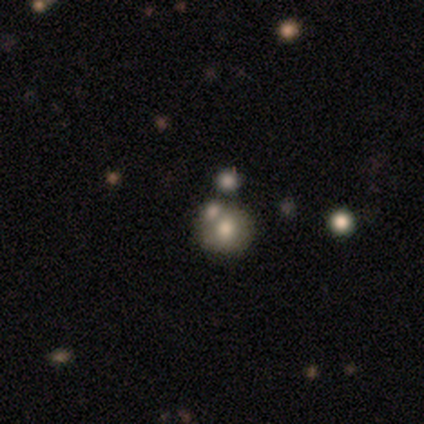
Smooth or featured?
  - smooth: 100% *
  - featured or disk: 0%
  - star or artifact: 0%
How rounded?
  - round: 100% *
  - in between: 0%
  - cigar-shaped: 0%
Merging?
  - none: 60% *
  - merger: 40%
  - minor disturbance: 0%
  - major disturbance: 0%